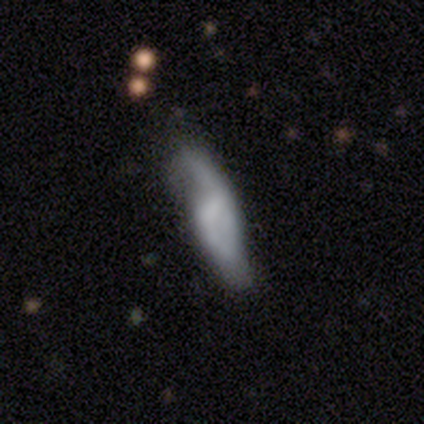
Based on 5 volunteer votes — A featured or disk galaxy (60%) with a strong bar (50%, tied with no), 2 (100%) loose (100%) spiral arms (50%, tied with no) and a moderate central bulge (50%, tied with none).

Vote fractions:
- Smooth or featured? featured or disk: 60% / smooth: 40% / star or artifact: 0%
- Edge-on disk? no: 67% / yes: 33%
- Bar? strong: 50% (tied) / no: 50% (tied) / weak: 0%
- Spiral arms? yes: 50% (tied) / no: 50% (tied)
- Spiral winding? loose: 100% / tight: 0% / medium: 0%
- Spiral arm count? 2: 100% / 1: 0% / 3: 0% / 4: 0% / more than 4: 0% / can't tell: 0%
- Bulge size? moderate: 50% (tied) / none: 50% (tied) / dominant: 0% / large: 0% / small: 0%
- Merging? minor disturbance: 40% (tied) / major disturbance: 40% (tied) / none: 20% / merger: 0%